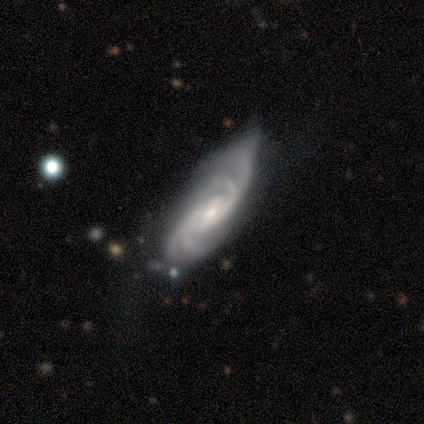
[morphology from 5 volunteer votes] A featured or disk galaxy (100%) with no bar (75%), 4 (100%) medium (50%) spiral arms (100%) and a small central bulge (75%). Merging: none (100%).